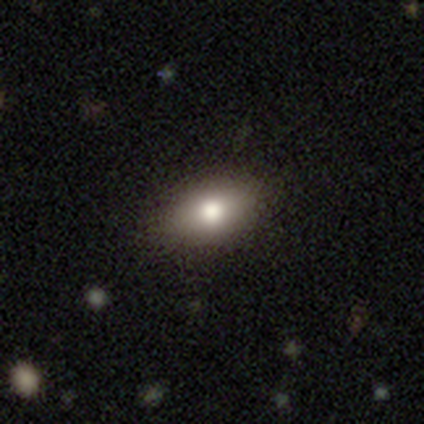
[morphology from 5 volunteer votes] Smooth or featured?
  - smooth: 80% *
  - featured or disk: 20%
  - star or artifact: 0%
How rounded?
  - in between: 100% *
  - round: 0%
  - cigar-shaped: 0%
Merging?
  - none: 100% *
  - minor disturbance: 0%
  - major disturbance: 0%
  - merger: 0%